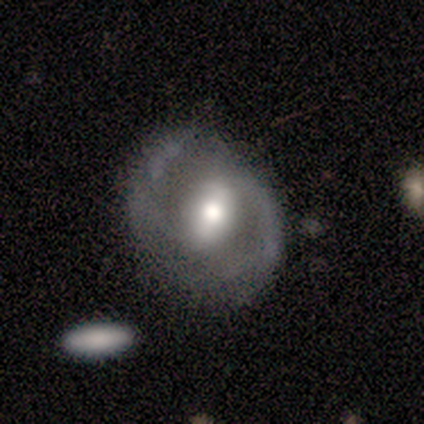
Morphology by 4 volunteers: This is clearly a featured or disk galaxy (100%). It is clearly not viewed edge-on (100%). Bar: likely strong (75%). Spiral arm pattern: clearly yes (100%). Spiral arm count: clearly 2 (100%). Spiral winding: likely medium (75%). Central bulge: possibly large (50%, tied with small). Merging: possibly none (50%, tied with minor disturbance).